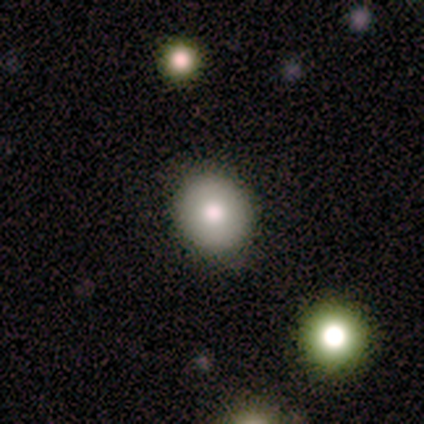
Smooth or featured: smooth — 60% (featured or disk — 40%)
How rounded: round — 67% (in between — 33%)
Merging: none — 100%